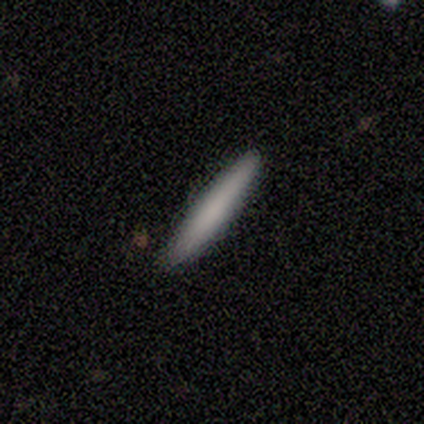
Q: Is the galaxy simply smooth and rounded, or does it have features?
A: featured or disk — 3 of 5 (60%).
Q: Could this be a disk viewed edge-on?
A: yes — 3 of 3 (100%).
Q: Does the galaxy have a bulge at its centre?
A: none — 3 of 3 (100%).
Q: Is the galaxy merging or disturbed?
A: none — 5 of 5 (100%).